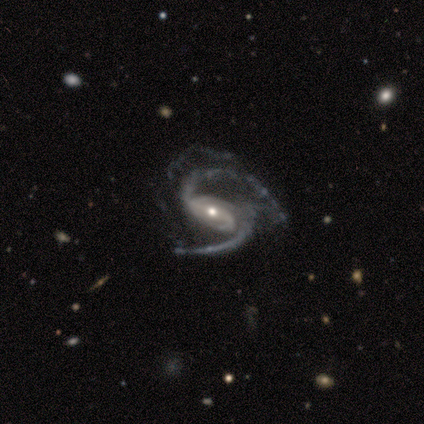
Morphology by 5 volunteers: Smooth or featured: featured or disk — 100%
Edge-on disk: no — 100%
Bar: weak — 60% (strong — 20%)
Spiral arms: yes — 100%
Spiral winding: medium — 60% (loose — 40%)
Spiral arm count: 2 — 60% (3 — 40%)
Bulge size: small — 80% (moderate — 20%)
Merging: none — 40% (tied with minor disturbance — 40%)